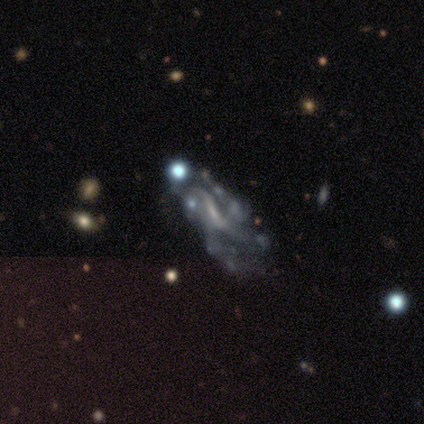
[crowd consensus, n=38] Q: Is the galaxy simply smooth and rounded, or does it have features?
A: featured or disk — 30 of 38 (79%).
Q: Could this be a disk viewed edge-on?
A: no — 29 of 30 (97%).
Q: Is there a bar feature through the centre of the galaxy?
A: weak — 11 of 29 (38%, tied with no).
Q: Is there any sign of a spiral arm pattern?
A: yes — 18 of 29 (62%).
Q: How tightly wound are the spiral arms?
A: loose — 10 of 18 (56%).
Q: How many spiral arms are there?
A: can't tell — 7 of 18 (39%).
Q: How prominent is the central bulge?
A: small — 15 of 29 (52%).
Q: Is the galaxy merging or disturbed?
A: major disturbance — 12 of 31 (39%).